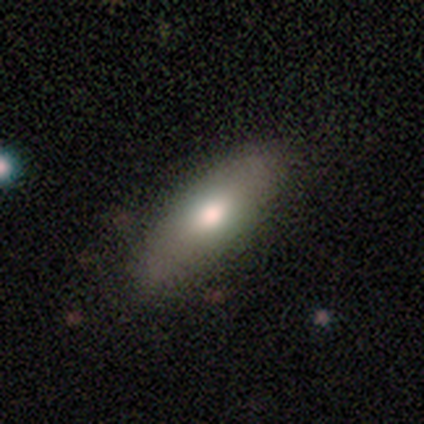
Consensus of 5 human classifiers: Smooth or featured: smooth — 80% (featured or disk — 20%)
How rounded: in between — 50% (tied with cigar-shaped — 50%)
Merging: none — 100%